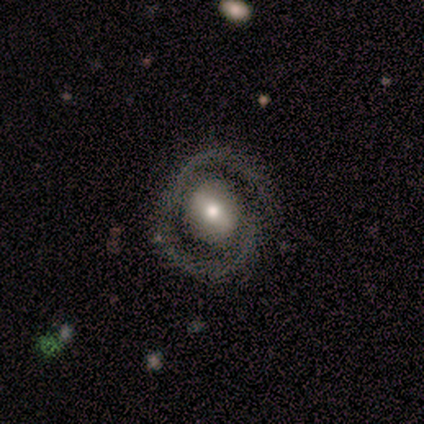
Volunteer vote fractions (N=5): Smooth or featured?
  - featured or disk: 60% *
  - smooth: 40%
  - star or artifact: 0%
Edge-on disk?
  - no: 100% *
  - yes: 0%
Bar?
  - weak: 67% *
  - no: 33%
  - strong: 0%
Spiral arms?
  - yes: 67% *
  - no: 33%
Spiral winding?
  - tight: 50% * (tied)
  - medium: 50% * (tied)
  - loose: 0%
Spiral arm count?
  - 2: 100% *
  - 1: 0%
  - 3: 0%
  - 4: 0%
  - more than 4: 0%
  - can't tell: 0%
Bulge size?
  - moderate: 67% *
  - none: 33%
  - dominant: 0%
  - large: 0%
  - small: 0%
Merging?
  - none: 60% *
  - major disturbance: 40%
  - minor disturbance: 0%
  - merger: 0%